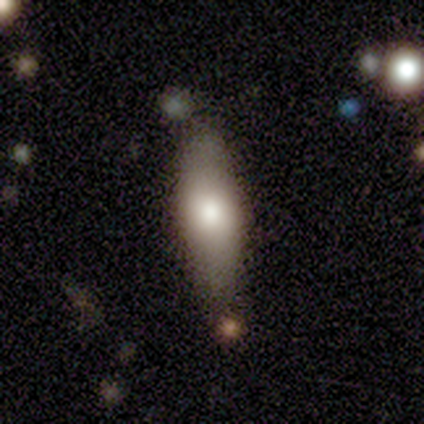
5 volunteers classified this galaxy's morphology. Smooth or featured?
  - smooth: 80% *
  - star or artifact: 20%
  - featured or disk: 0%
How rounded?
  - cigar-shaped: 75% *
  - in between: 25%
  - round: 0%
Merging?
  - none: 100% *
  - minor disturbance: 0%
  - major disturbance: 0%
  - merger: 0%